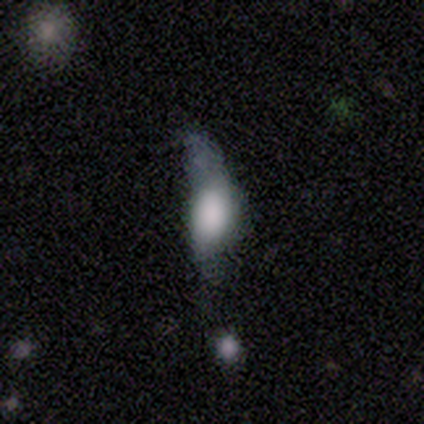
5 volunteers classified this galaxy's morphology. This is likely a smooth galaxy (60%). How rounded: likely in between (67%). Merging: marginally major disturbance (40%).